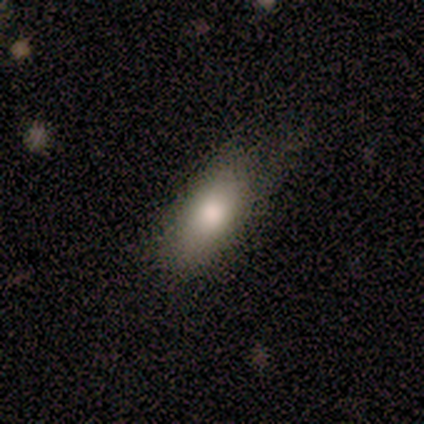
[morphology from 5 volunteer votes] Q: Smooth or featured?
A: smooth (100%)
Q: How rounded?
A: in between (80%); runner-up: cigar-shaped (20%)
Q: Merging?
A: none (80%); runner-up: minor disturbance (20%)